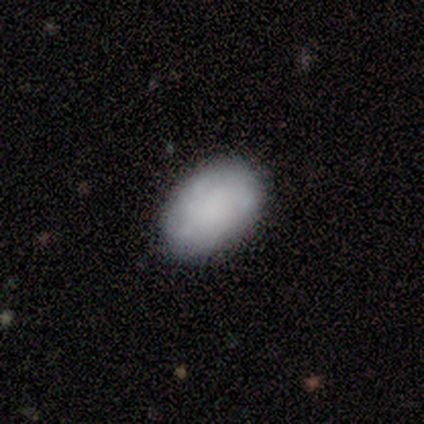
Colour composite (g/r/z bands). It shows a smooth galaxy with no disk features (80%) that is in between round and cigar-shaped (100%). Merging: none (80%).